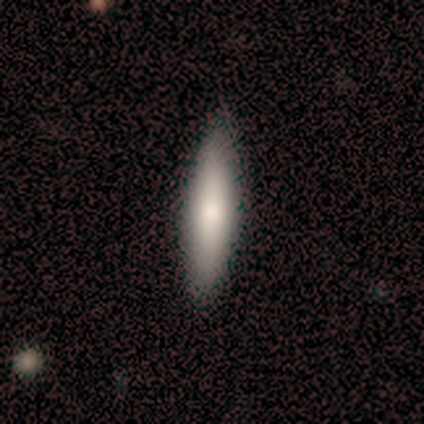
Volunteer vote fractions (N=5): This appears to be a smooth galaxy with no disk features (100%) that is cigar-shaped (100%). Merging: none (100%).